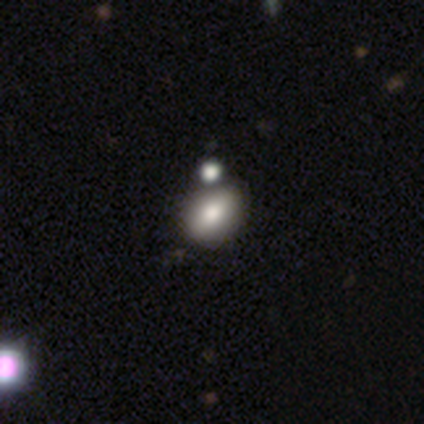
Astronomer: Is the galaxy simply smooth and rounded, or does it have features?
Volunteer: smooth — 60% (runner-up: featured or disk, 40%).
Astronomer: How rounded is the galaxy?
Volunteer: round — 33%, tied with in between and cigar-shaped at 33%.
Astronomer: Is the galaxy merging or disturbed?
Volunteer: minor disturbance — 60% (runner-up: merger, 40%).